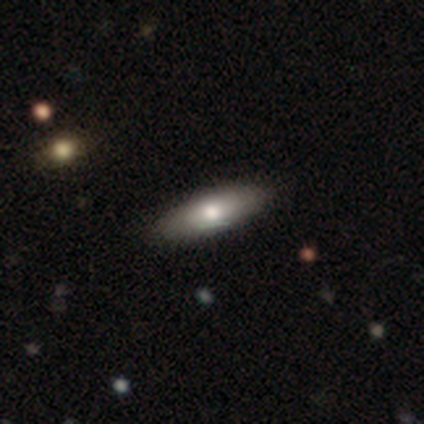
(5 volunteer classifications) Morphology: type=smooth (60%); roundness=cigar-shaped (67%); merging=none (100%).